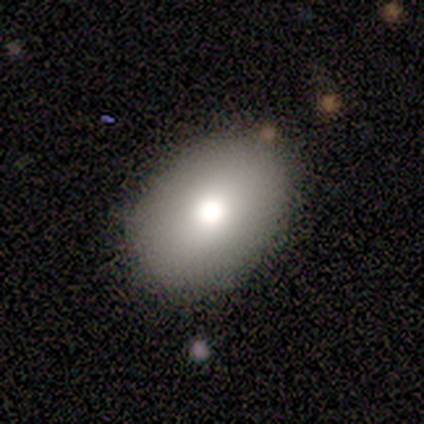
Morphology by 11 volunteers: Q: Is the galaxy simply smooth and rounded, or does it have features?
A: smooth — 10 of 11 (91%).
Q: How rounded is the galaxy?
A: in between — 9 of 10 (90%).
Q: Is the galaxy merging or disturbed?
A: none — 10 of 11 (91%).